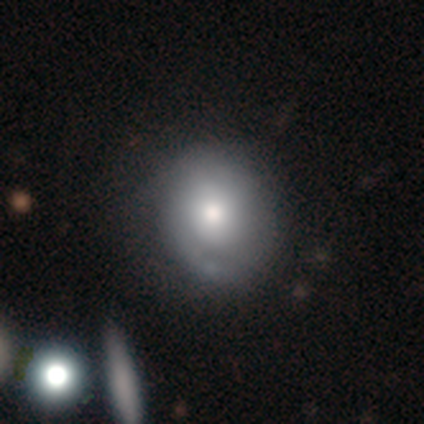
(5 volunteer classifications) Smooth or featured: smooth — 60% (featured or disk — 40%)
How rounded: round — 67% (in between — 33%)
Merging: none — 60% (minor disturbance — 40%)